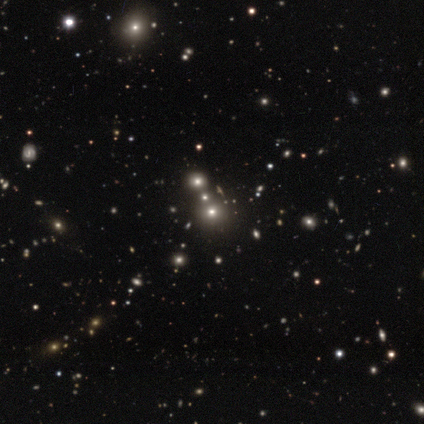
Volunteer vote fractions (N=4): This is possibly a smooth galaxy (50%, tied with star or artifact). How rounded: clearly round (100%). Merging: clearly none (100%).